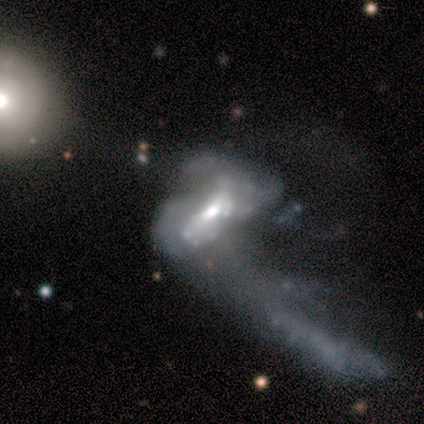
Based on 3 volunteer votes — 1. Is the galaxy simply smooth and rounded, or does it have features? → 100% featured or disk, 0% smooth, 0% star or artifact.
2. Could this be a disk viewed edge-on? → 100% no, 0% yes.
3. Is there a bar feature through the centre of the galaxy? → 33% strong (tied), 33% weak (tied), 33% no (tied).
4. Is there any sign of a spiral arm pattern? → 67% no, 33% yes.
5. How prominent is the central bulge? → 100% moderate, 0% dominant, 0% large, 0% small, 0% none.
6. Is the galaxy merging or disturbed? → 67% major disturbance, 33% none, 0% minor disturbance, 0% merger.